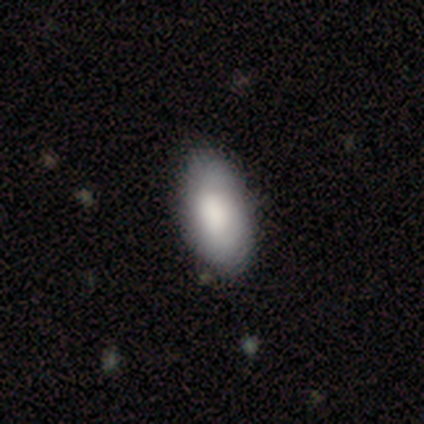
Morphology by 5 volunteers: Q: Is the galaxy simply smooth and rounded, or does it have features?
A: smooth — 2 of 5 (40%, tied with featured or disk).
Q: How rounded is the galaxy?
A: in between — 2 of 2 (100%).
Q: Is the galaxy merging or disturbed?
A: none — 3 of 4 (75%).